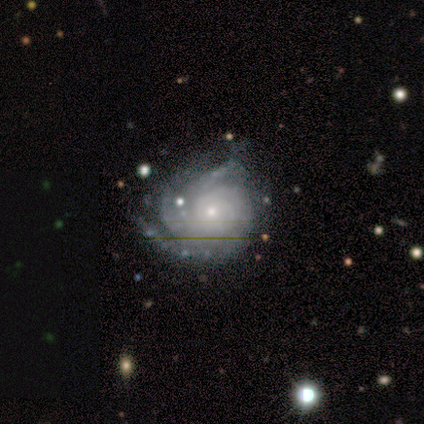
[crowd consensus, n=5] This appears to be a featured or disk galaxy (80%) with no bar (100%), 3 (50%, tied with can't tell) tight (100%) spiral arms (100%) and a small central bulge (100%). Merging: none (50%).